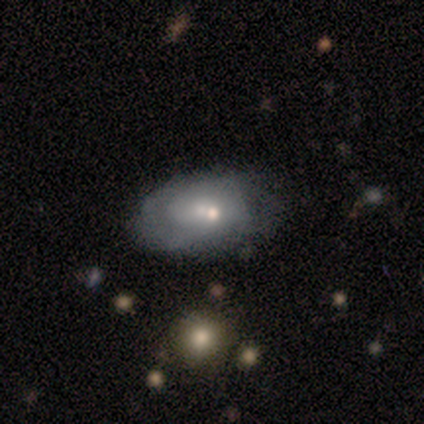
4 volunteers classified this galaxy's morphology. Q: Smooth or featured?
A: smooth (50%); tied with: featured or disk (50%)
Q: How rounded?
A: in between (100%)
Q: Merging?
A: none (50%); runner-up: minor disturbance (25%)